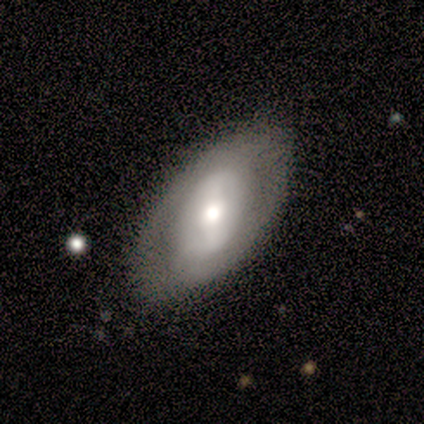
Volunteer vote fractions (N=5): Q: Smooth or featured?
A: featured or disk (60%); runner-up: smooth (40%)
Q: Edge-on disk?
A: no (100%)
Q: Bar?
A: no (67%); runner-up: strong (33%)
Q: Spiral arms?
A: no (67%); runner-up: yes (33%)
Q: Bulge size?
A: large (100%)
Q: Merging?
A: none (100%)